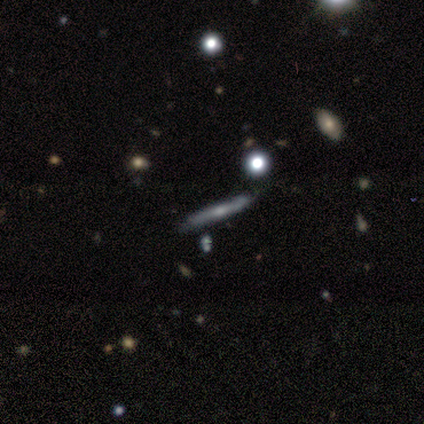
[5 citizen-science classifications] featured or disk 80%, smooth 20%, star or artifact 0%. Down the decision tree: edge-on disk — yes (50%, tied with no); edge-on bulge — none (50%, tied with rounded); merging — none (60%).